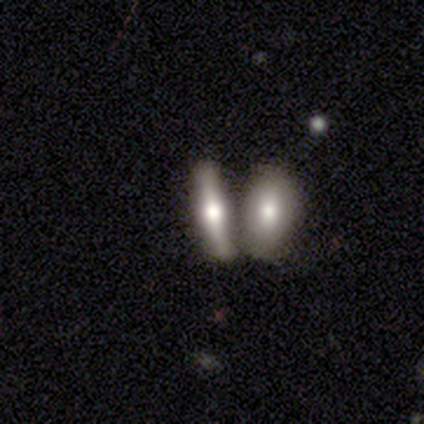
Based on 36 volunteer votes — A featured or disk galaxy (61%) viewed edge-on (82%) with a rounded central bulge (89%).

Vote fractions:
- Smooth or featured? featured or disk: 61% / smooth: 36% / star or artifact: 3%
- Edge-on disk? yes: 82% / no: 18%
- Edge-on bulge? rounded: 89% / boxy: 11% / none: 0%
- Merging? merger: 63% / none: 23% / minor disturbance: 14% / major disturbance: 0%